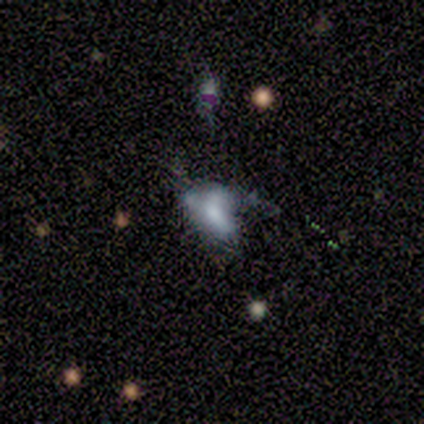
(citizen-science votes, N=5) Smooth or featured? 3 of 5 (60%) said smooth. How rounded? 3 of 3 (100%) said in between. Merging? 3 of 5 (60%) said major disturbance.